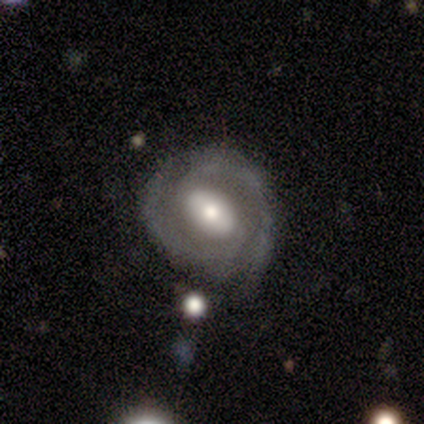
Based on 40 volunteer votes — A featured or disk galaxy (80%) with a weak bar (38%), 2 (83%) tight (50%) spiral arms (94%) and a moderate central bulge (59%).

Vote fractions:
- Smooth or featured? featured or disk: 80% / smooth: 15% / star or artifact: 5%
- Edge-on disk? no: 100% / yes: 0%
- Bar? weak: 38% / strong: 31% / no: 31%
- Spiral arms? yes: 94% / no: 6%
- Spiral winding? tight: 50% / medium: 43% / loose: 7%
- Spiral arm count? 2: 83% / 3: 7% / can't tell: 7% / 1: 3% / 4: 0% / more than 4: 0%
- Bulge size? moderate: 59% / large: 22% / small: 19% / dominant: 0% / none: 0%
- Merging? none: 71% / minor disturbance: 21% / major disturbance: 5% / merger: 3%